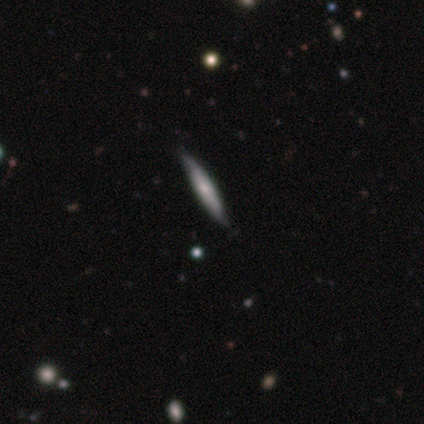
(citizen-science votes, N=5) smooth_or_featured: smooth (p=0.60) [alt: featured or disk p=0.40]
how_rounded: cigar-shaped (p=1.00)
merging: none (p=1.00)